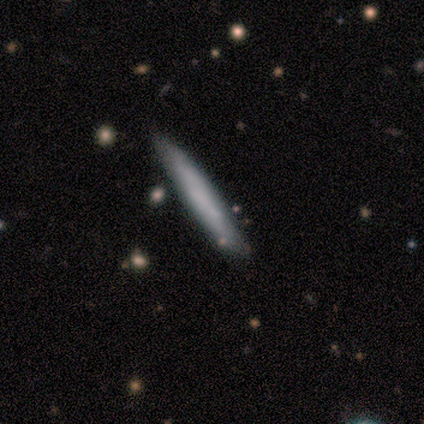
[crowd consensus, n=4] Smooth or featured? smooth (100%)
How rounded? cigar-shaped (100%)
Merging? none (75%)